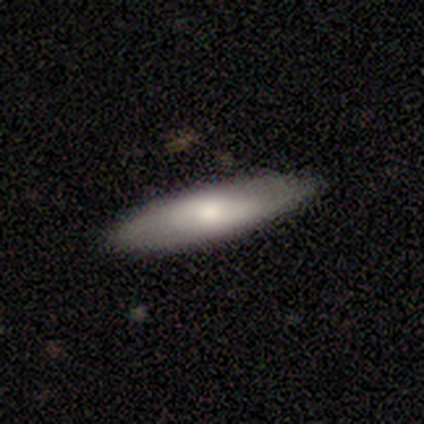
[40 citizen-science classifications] Overall: smooth (57%; featured or disk 40%). How rounded: cigar-shaped (61%; in between 39%). Merging: none (74%).